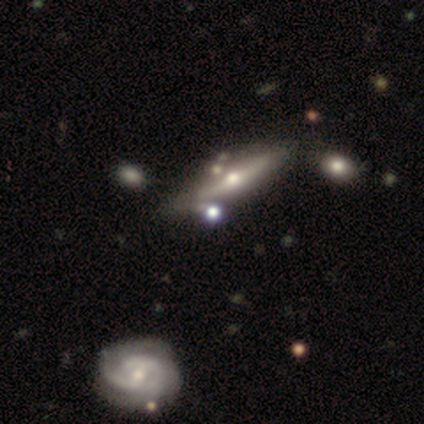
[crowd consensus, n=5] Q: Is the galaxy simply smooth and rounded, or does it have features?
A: featured or disk — 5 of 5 (100%).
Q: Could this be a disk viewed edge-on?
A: yes — 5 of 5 (100%).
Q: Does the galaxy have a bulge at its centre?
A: rounded — 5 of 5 (100%).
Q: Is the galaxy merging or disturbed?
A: none — 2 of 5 (40%).